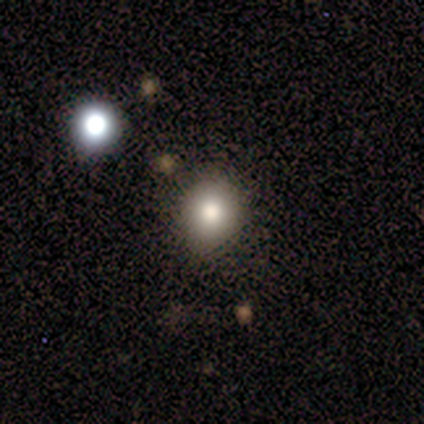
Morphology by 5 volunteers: Smooth or featured?
  - smooth: 60% *
  - featured or disk: 20%
  - star or artifact: 20%
How rounded?
  - round: 100% *
  - in between: 0%
  - cigar-shaped: 0%
Merging?
  - none: 100% *
  - minor disturbance: 0%
  - major disturbance: 0%
  - merger: 0%